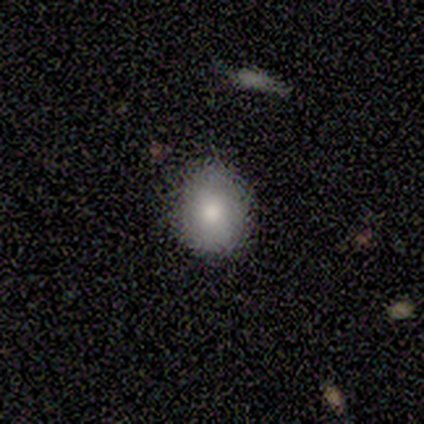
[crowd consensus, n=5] Q: Smooth or featured?
A: smooth (80%); runner-up: featured or disk (20%)
Q: How rounded?
A: round (50%); tied with: in between (50%)
Q: Merging?
A: none (80%); runner-up: minor disturbance (20%)